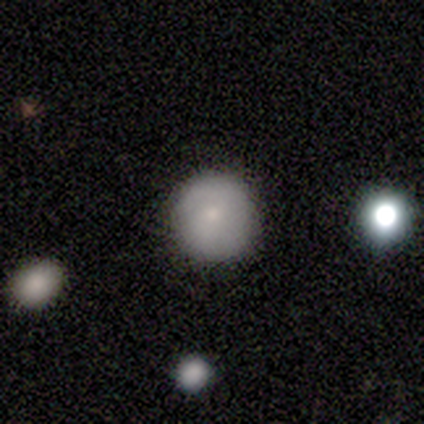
Smooth or featured?
  - smooth: 40% * (tied)
  - featured or disk: 40% * (tied)
  - star or artifact: 20%
How rounded?
  - round: 100% *
  - in between: 0%
  - cigar-shaped: 0%
Merging?
  - none: 100% *
  - minor disturbance: 0%
  - major disturbance: 0%
  - merger: 0%